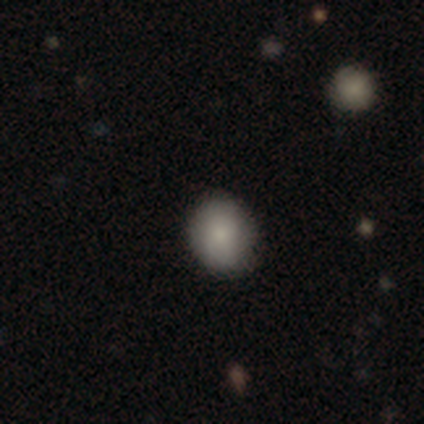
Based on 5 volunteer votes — A smooth galaxy with no disk features (60%) that is round (67%).

Vote fractions:
- Smooth or featured? smooth: 60% / featured or disk: 20% / star or artifact: 20%
- How rounded? round: 67% / in between: 33% / cigar-shaped: 0%
- Merging? none: 100% / minor disturbance: 0% / major disturbance: 0% / merger: 0%